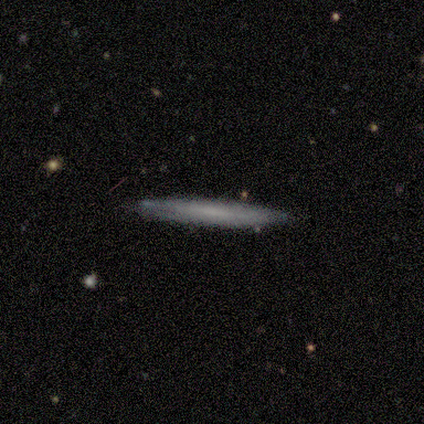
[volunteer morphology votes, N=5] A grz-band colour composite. It shows a featured or disk galaxy (60%) viewed edge-on (67%) with no central bulge (100%). Merging: none (80%).